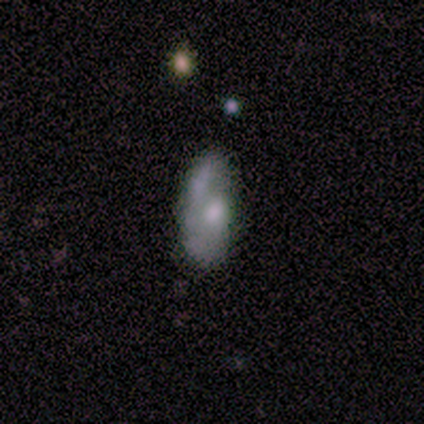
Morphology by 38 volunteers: featured or disk 50%, smooth 47%, star or artifact 3%. Down the decision tree: edge-on disk — no (89%); bar — no (88%); spiral arms — no (53%); bulge size — moderate (59%); merging — none (54%).